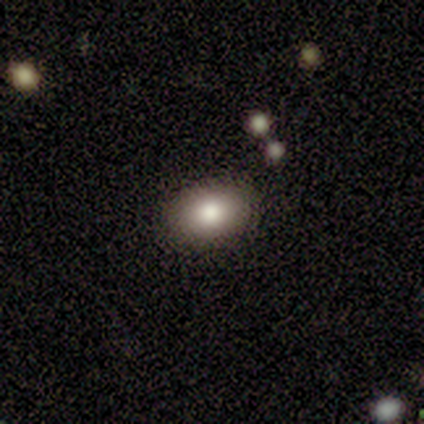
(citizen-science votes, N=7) Overall: smooth (71%). How rounded: in between (100%). Merging: none (86%).